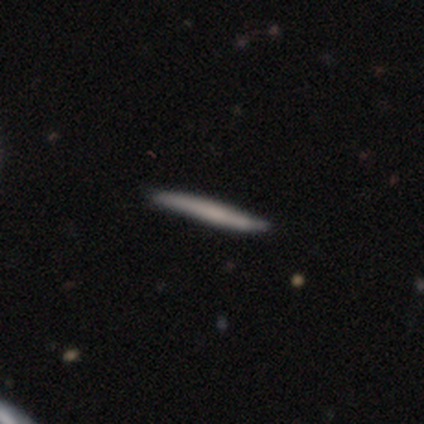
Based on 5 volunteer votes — Smooth or featured: smooth — 40% (tied with featured or disk — 40%)
How rounded: cigar-shaped — 100%
Merging: none — 100%